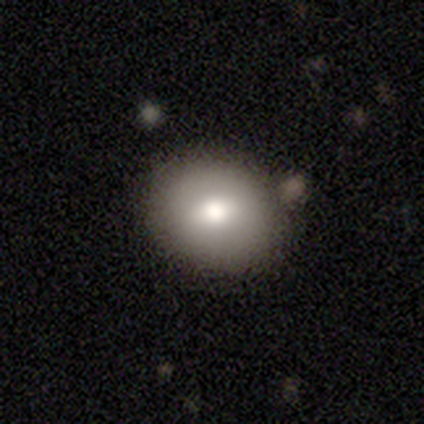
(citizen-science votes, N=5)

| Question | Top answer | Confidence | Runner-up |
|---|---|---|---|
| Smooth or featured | smooth | 60% | featured or disk (20%) |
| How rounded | in between | 67% | round (33%) |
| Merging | none | 75% | merger (25%) |